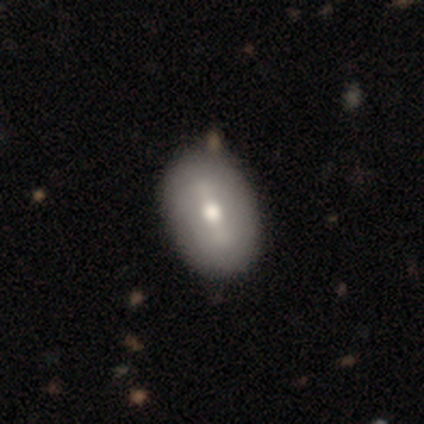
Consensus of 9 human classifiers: smooth-or-featured: smooth: 56% | featured or disk: 44% | star or artifact: 0%
  how-rounded: in between: 100% | round: 0% | cigar-shaped: 0%
  merging: none: 100% | minor disturbance: 0% | major disturbance: 0% | merger: 0%